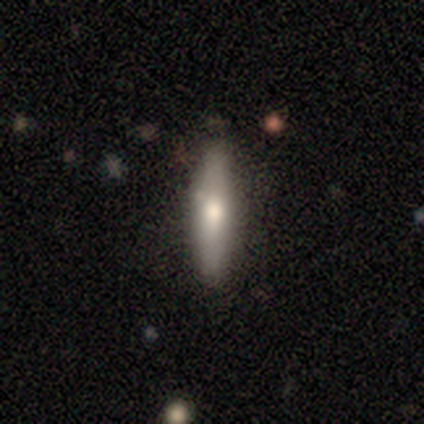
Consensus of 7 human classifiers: Volunteers were most divided on "smooth or featured": smooth: 57%, featured or disk: 43%, star or artifact: 0%. More confident: how rounded — cigar-shaped (100%); merging — none (86%).